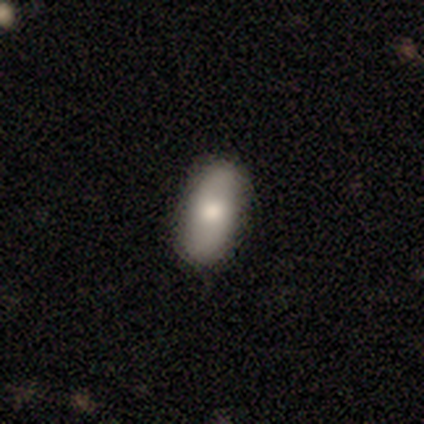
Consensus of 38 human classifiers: smooth 74%, featured or disk 21%, star or artifact 5%. Down the decision tree: how rounded — in between (89%); merging — none (86%).